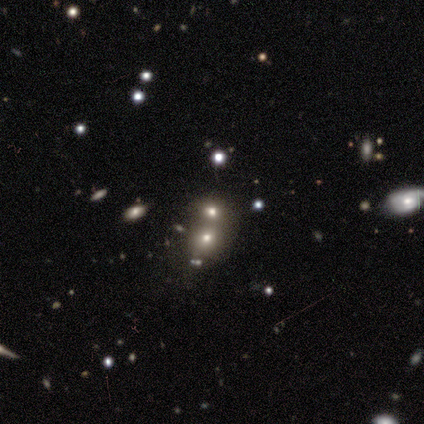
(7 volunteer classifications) A star or artifact, not a galaxy (57%).